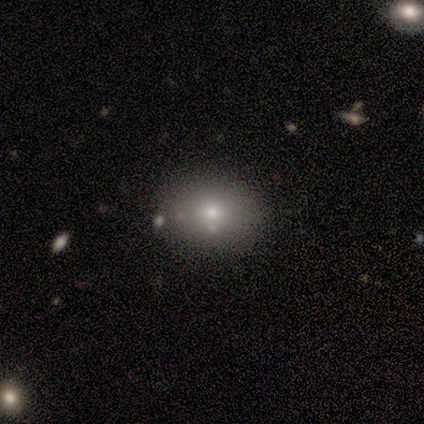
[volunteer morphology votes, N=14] This is likely a smooth galaxy (64%). How rounded: possibly in between (56%). Merging: clearly none (92%).